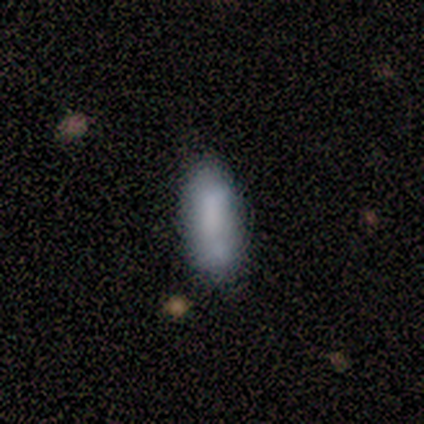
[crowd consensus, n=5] Q: Smooth or featured?
A: smooth (60%); runner-up: star or artifact (40%)
Q: How rounded?
A: cigar-shaped (67%); runner-up: in between (33%)
Q: Merging?
A: none (67%); runner-up: merger (33%)